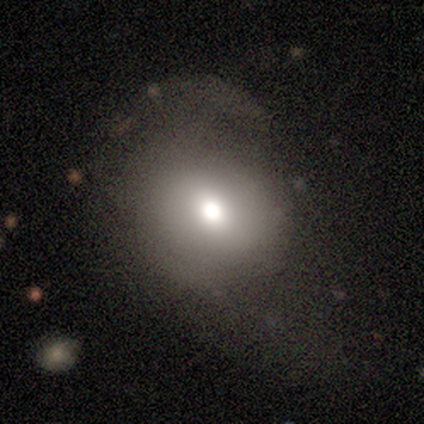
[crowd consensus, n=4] Smooth or featured?
  - smooth: 75% *
  - star or artifact: 25%
  - featured or disk: 0%
How rounded?
  - round: 67% *
  - in between: 33%
  - cigar-shaped: 0%
Merging?
  - minor disturbance: 67% *
  - none: 33%
  - major disturbance: 0%
  - merger: 0%